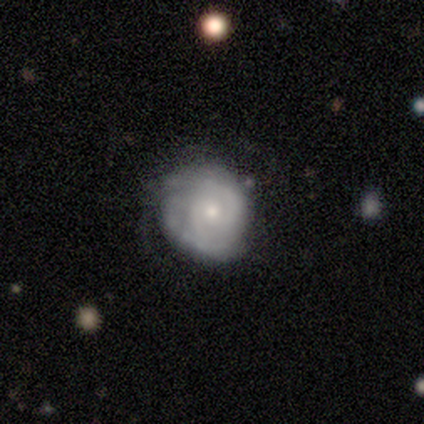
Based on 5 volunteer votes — Overall: featured or disk (100%). Edge-on disk: no (100%). Bar: no (80%). Spiral arms: yes (80%). Spiral arm count: 2 (50%; 1 25%). Spiral winding: tight (50%, tied with medium). Bulge size: moderate (60%; small 40%). Merging: none (60%; minor disturbance 20%).